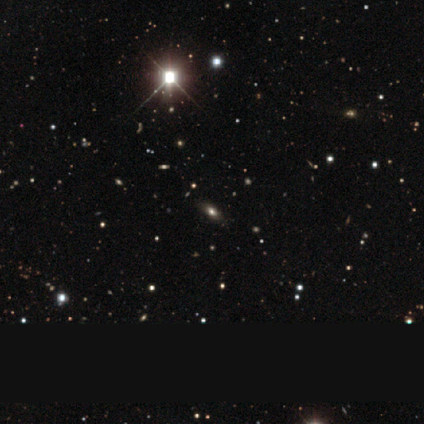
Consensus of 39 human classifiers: Smooth or featured? 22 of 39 (56%) said star or artifact.